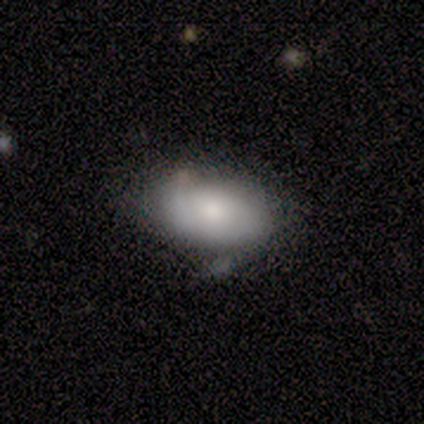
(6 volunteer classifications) smooth_or_featured: smooth (p=0.50) [tied with: featured or disk p=0.50]
how_rounded: in between (p=1.00)
merging: none (p=0.50) [alt: minor disturbance p=0.33]